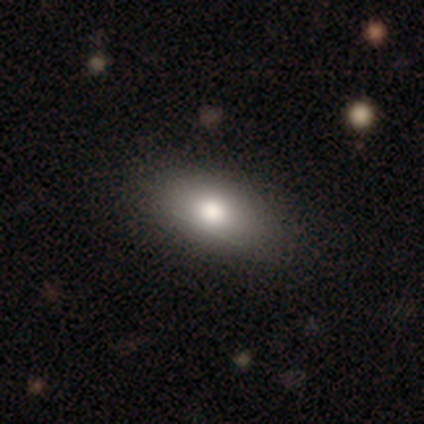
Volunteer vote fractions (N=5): Smooth or featured: smooth — 100%
How rounded: in between — 100%
Merging: none — 100%